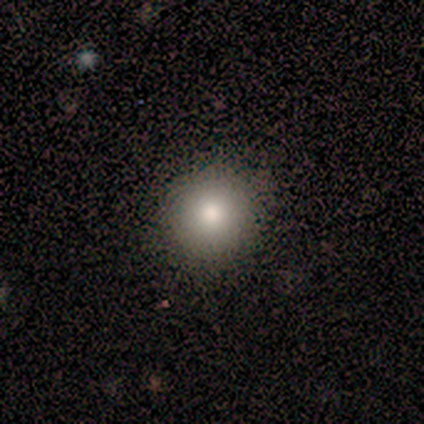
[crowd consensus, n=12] Q: Smooth or featured?
A: smooth (83%); runner-up: featured or disk (8%)
Q: How rounded?
A: round (90%); runner-up: in between (10%)
Q: Merging?
A: none (91%); runner-up: minor disturbance (9%)